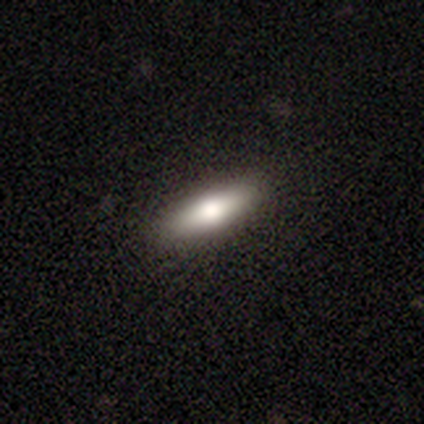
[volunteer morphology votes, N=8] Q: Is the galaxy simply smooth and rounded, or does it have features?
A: smooth — 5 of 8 (62%).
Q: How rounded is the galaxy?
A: in between — 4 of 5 (80%).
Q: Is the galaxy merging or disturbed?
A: none — 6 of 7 (86%).